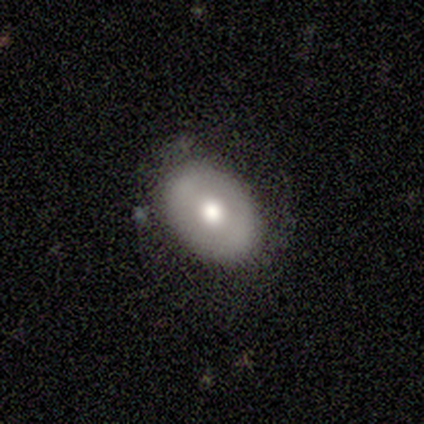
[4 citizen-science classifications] Smooth or featured? smooth (75%)
How rounded? in between (67%)
Merging? none (75%)